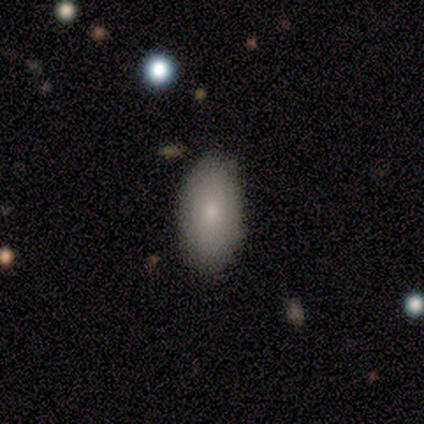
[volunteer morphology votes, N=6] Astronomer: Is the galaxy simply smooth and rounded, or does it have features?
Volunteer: smooth — 83%.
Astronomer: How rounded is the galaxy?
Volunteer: in between — 80%.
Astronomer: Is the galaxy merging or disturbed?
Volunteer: none — 100%.